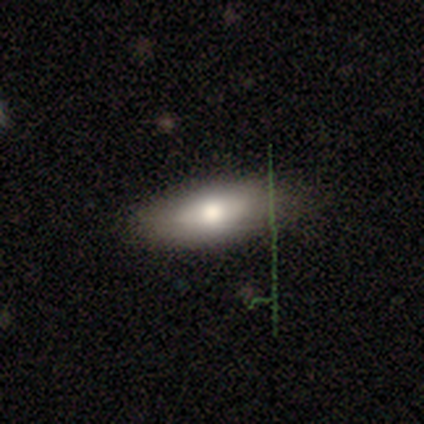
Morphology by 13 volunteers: smooth-or-featured: smooth: 85% | featured or disk: 8% | star or artifact: 8%
  how-rounded: in between: 73% | round: 18% | cigar-shaped: 9%
  merging: none: 92% | minor disturbance: 8% | major disturbance: 0% | merger: 0%